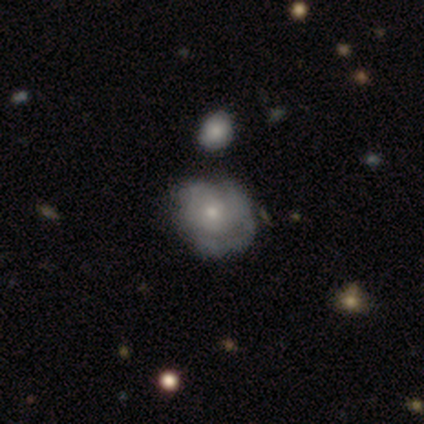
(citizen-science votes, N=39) A featured or disk galaxy (74%) with no bar (97%), tight (38%, tied with medium) spiral arms (55%) and a small central bulge (66%). Merging: none (44%).